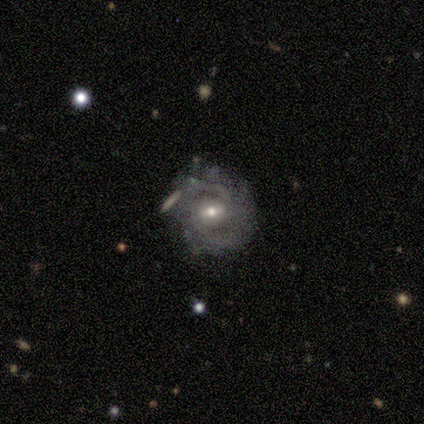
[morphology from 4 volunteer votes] smooth_or_featured: smooth (p=0.50) [tied with: featured or disk p=0.50]
how_rounded: round (p=0.50) [tied with: in between p=0.50]
merging: minor disturbance (p=0.75) [alt: merger p=0.25]